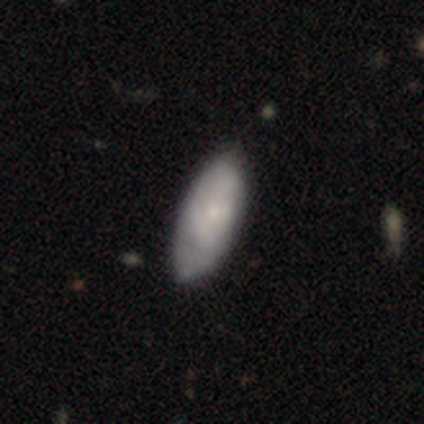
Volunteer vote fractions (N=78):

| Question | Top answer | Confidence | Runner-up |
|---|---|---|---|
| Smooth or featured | smooth | 50% | featured or disk (49%) |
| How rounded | in between | 79% | cigar-shaped (18%) |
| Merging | none | 26% | minor disturbance (19%) |